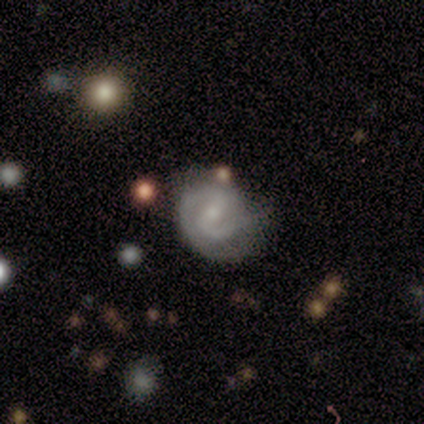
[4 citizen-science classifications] Smooth or featured: featured or disk — 50% (smooth — 25%)
Edge-on disk: no — 100%
Bar: strong — 50% (tied with weak — 50%)
Spiral arms: yes — 100%
Spiral winding: tight — 50% (tied with loose — 50%)
Spiral arm count: 2 — 50% (tied with 3 — 50%)
Bulge size: small — 100%
Merging: none — 67% (merger — 33%)